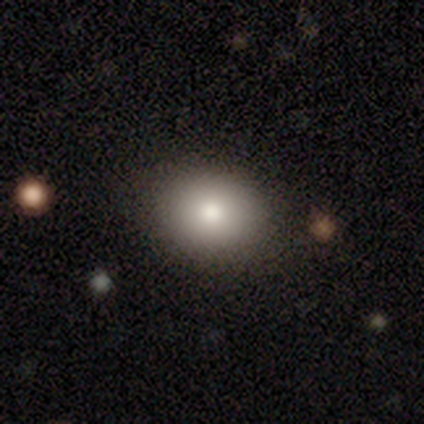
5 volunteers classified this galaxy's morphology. smooth-or-featured: smooth: 80% | star or artifact: 20% | featured or disk: 0%
  how-rounded: round: 75% | in between: 25% | cigar-shaped: 0%
  merging: none: 100% | minor disturbance: 0% | major disturbance: 0% | merger: 0%